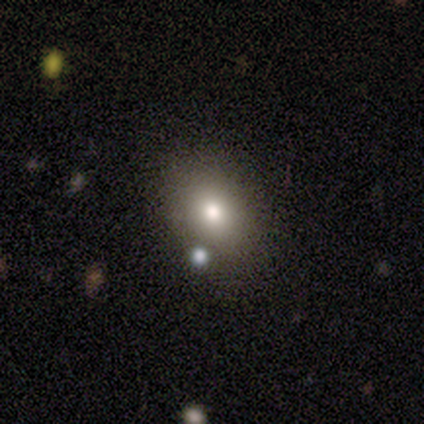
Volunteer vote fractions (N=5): smooth_or_featured: smooth (p=1.00)
how_rounded: in between (p=0.80) [alt: round p=0.20]
merging: none (p=1.00)